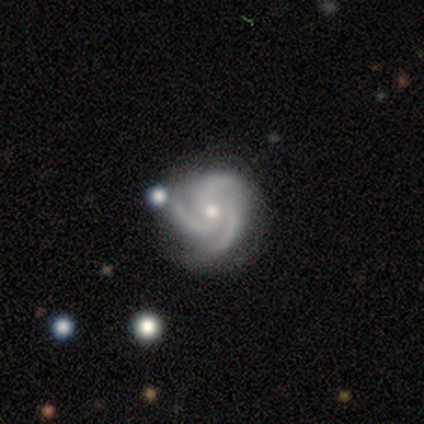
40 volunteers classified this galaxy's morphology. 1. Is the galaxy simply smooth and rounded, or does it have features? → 98% featured or disk, 2% smooth, 0% star or artifact.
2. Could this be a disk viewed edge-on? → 97% no, 3% yes.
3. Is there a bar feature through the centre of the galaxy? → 74% no, 21% weak, 5% strong.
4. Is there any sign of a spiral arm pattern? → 95% yes, 5% no.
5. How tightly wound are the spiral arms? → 47% medium, 44% tight, 8% loose.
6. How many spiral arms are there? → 94% 3, 6% 2, 0% 1, 0% 4, 0% more than 4, 0% can't tell.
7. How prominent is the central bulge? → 50% small, 42% moderate, 5% large, 3% none, 0% dominant.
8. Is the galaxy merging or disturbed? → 75% none, 10% minor disturbance, 8% major disturbance, 8% merger.